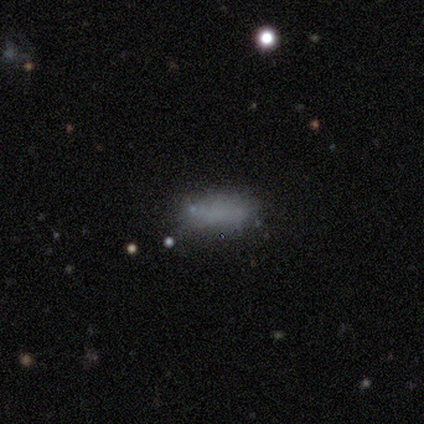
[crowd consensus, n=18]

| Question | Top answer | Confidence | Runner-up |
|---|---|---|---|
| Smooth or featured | smooth | 61% | featured or disk (22%) |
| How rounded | in between | 82% | cigar-shaped (18%) |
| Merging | none | 73% | minor disturbance (27%) |